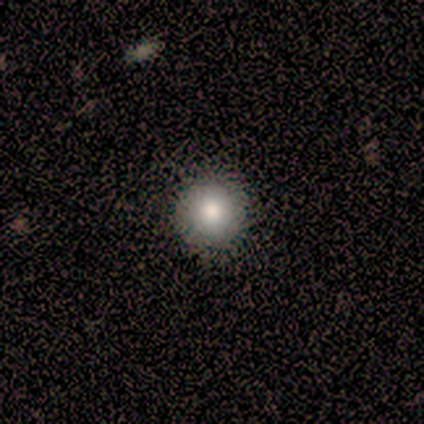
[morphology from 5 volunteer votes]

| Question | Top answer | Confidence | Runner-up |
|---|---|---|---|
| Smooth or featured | smooth | 60% | featured or disk (40%) |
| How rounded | round | 67% | in between (33%) |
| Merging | none | 80% | minor disturbance (20%) |